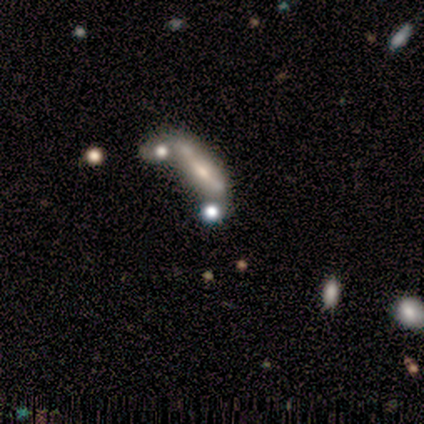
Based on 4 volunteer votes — This is clearly a smooth galaxy (100%). How rounded: possibly in between (50%). Merging: possibly minor disturbance (50%).